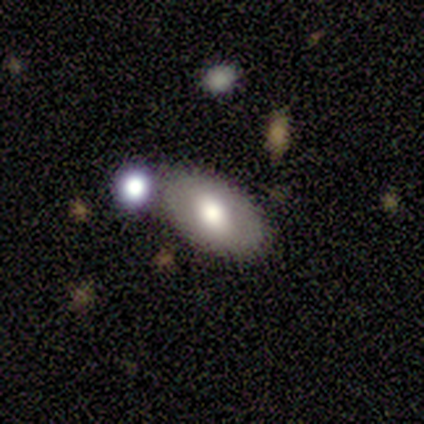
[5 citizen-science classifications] Volunteers were most divided on "merging" (2-way tie): none: 40%, minor disturbance: 40%, merger: 20%, major disturbance: 0%. More confident: how rounded — in between (100%); smooth or featured — smooth (80%).